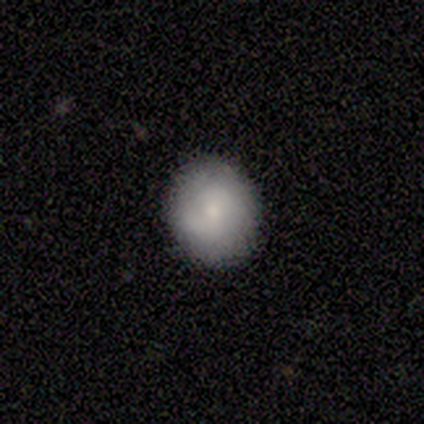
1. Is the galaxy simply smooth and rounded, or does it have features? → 61% smooth, 29% featured or disk, 11% star or artifact.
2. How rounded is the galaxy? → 83% round, 17% in between, 0% cigar-shaped.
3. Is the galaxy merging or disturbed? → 88% none, 6% minor disturbance, 3% major disturbance, 3% merger.